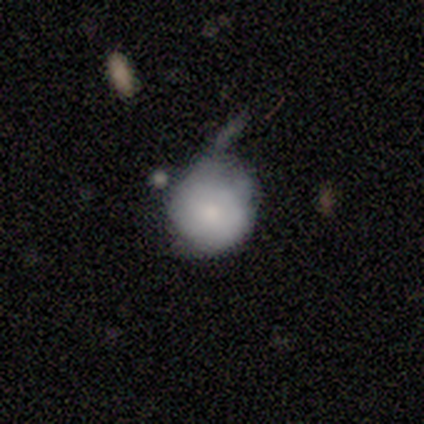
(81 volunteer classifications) A smooth galaxy with no disk features (73%) that is round (90%).

Vote fractions:
- Smooth or featured? smooth: 73% / featured or disk: 21% / star or artifact: 6%
- How rounded? round: 90% / in between: 10% / cigar-shaped: 0%
- Merging? minor disturbance: 38% / none: 29% / major disturbance: 22% / merger: 11%